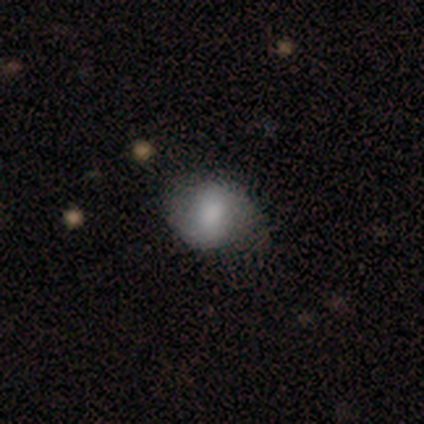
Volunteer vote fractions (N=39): This appears to be a smooth galaxy with no disk features (54%) that is in between round and cigar-shaped (52%). Merging: none (73%).